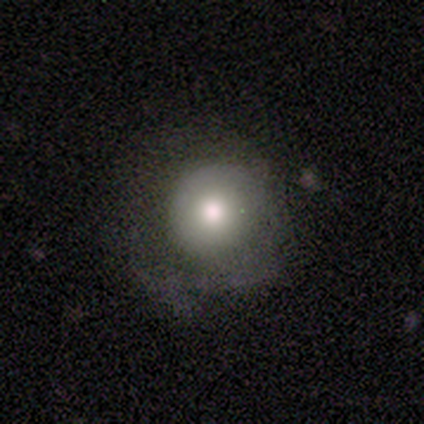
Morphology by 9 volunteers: Smooth or featured? smooth (78%)
How rounded? round (86%)
Merging? none (56%)